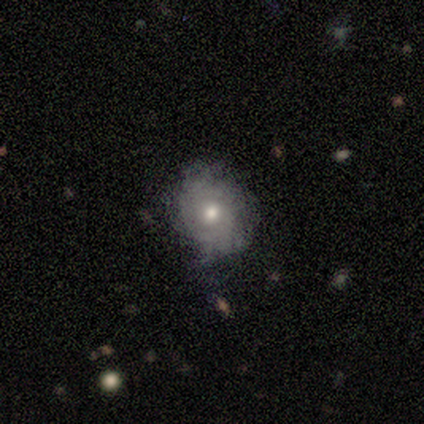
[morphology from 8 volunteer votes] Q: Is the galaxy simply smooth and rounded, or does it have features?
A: featured or disk — 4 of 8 (50%).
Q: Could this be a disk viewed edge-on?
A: no — 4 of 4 (100%).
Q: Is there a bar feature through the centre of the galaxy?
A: no — 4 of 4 (100%).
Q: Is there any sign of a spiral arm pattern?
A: no — 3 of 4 (75%).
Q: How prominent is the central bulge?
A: moderate — 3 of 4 (75%).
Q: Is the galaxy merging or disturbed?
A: none — 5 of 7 (71%).